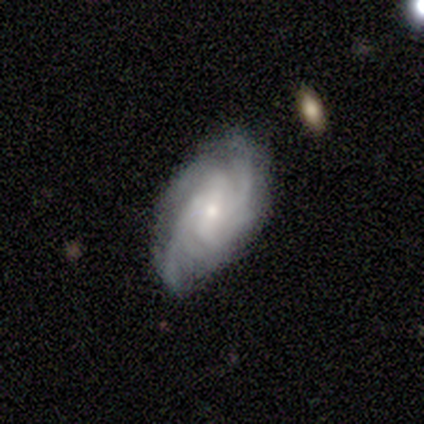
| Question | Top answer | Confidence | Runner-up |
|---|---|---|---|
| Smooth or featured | featured or disk | 80% | smooth (20%) |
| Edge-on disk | no | 100% | — |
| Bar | weak | 75% | strong (25%) |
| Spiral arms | yes | 100% | — |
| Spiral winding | tight | 50% | tied: medium (50%) |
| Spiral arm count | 2 | 25% | tied: 3 (25%), more than 4 (25%), can't tell (25%) |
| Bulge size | moderate | 50% | tied: small (50%) |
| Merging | none | 60% | minor disturbance (20%) |